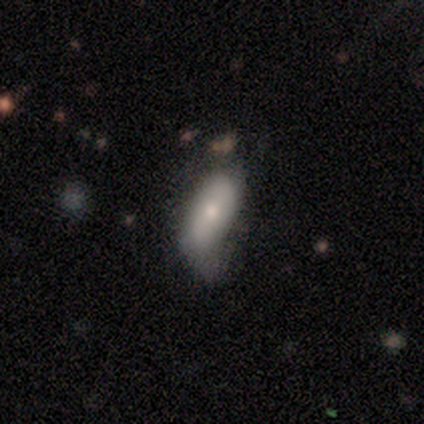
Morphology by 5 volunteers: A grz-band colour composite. It shows a smooth galaxy with no disk features (100%) that is in between round and cigar-shaped (100%). Merging: none (60%).